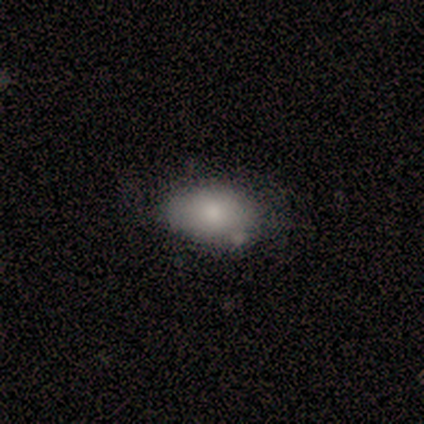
Q: Smooth or featured?
A: smooth (60%); runner-up: star or artifact (40%)
Q: How rounded?
A: in between (100%)
Q: Merging?
A: none (100%)